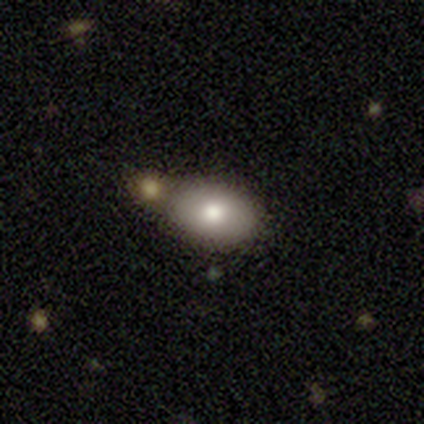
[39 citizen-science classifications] Q: Smooth or featured?
A: smooth (74%); runner-up: featured or disk (21%)
Q: How rounded?
A: in between (79%); runner-up: round (21%)
Q: Merging?
A: none (46%); runner-up: merger (32%)